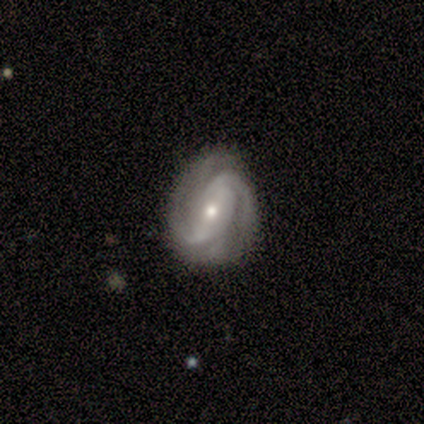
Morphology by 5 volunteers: A featured or disk galaxy (100%) with a weak bar (60%), 2 (40%, tied with can't tell) medium (60%) spiral arms (100%) and a small central bulge (80%). Merging: minor disturbance (60%).